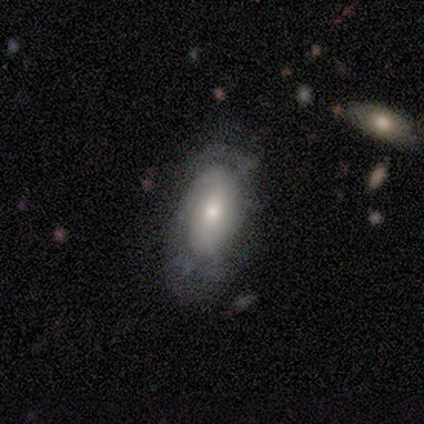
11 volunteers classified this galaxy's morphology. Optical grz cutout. It shows a smooth galaxy with no disk features (45%, tied with featured or disk) that is in between round and cigar-shaped (80%). Merging: minor disturbance (50%).